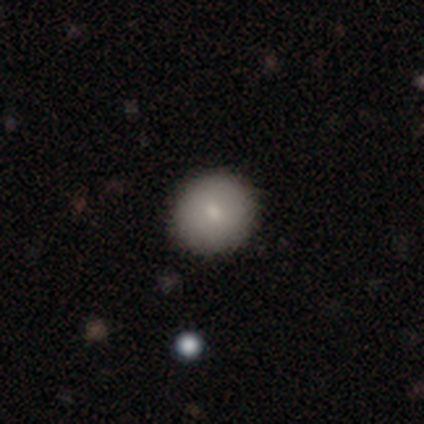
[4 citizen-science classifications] Overall: smooth (75%). How rounded: round (67%; in between 33%). Merging: none (100%).